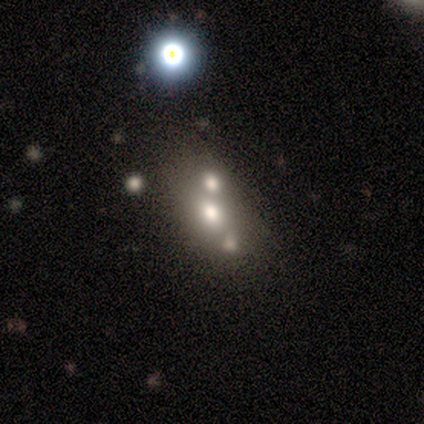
Q: Smooth or featured?
A: smooth (60%); runner-up: featured or disk (40%)
Q: How rounded?
A: in between (100%)
Q: Merging?
A: merger (60%); runner-up: none (20%)